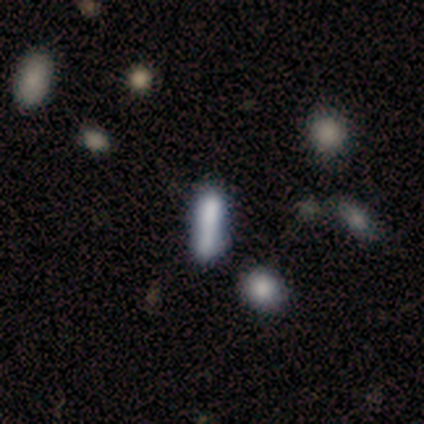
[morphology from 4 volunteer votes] This is likely a smooth galaxy (75%). How rounded: likely in between (67%). Merging: likely none (67%).